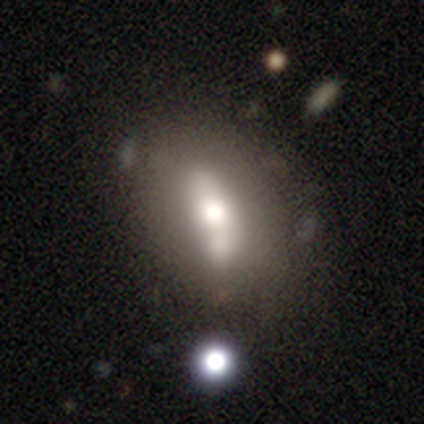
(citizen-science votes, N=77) smooth_or_featured: smooth (p=0.47) [alt: featured or disk p=0.42]
how_rounded: in between (p=0.69) [alt: round p=0.17]
merging: merger (p=0.29) [alt: none p=0.19]